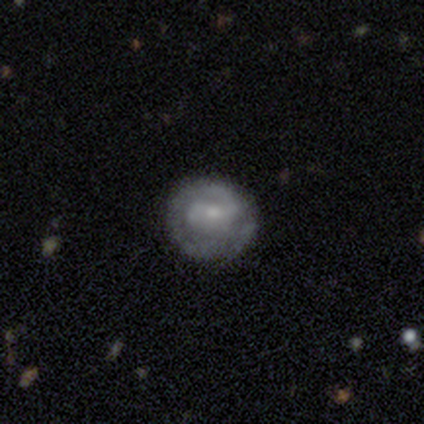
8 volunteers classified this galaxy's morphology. Q: Smooth or featured?
A: featured or disk (100%)
Q: Edge-on disk?
A: no (100%)
Q: Bar?
A: weak (62%); runner-up: no (25%)
Q: Spiral arms?
A: yes (88%); runner-up: no (12%)
Q: Spiral winding?
A: tight (43%); tied with: medium (43%)
Q: Spiral arm count?
A: 2 (57%); runner-up: 1 (29%)
Q: Bulge size?
A: small (62%); runner-up: moderate (38%)
Q: Merging?
A: none (75%); runner-up: minor disturbance (12%)